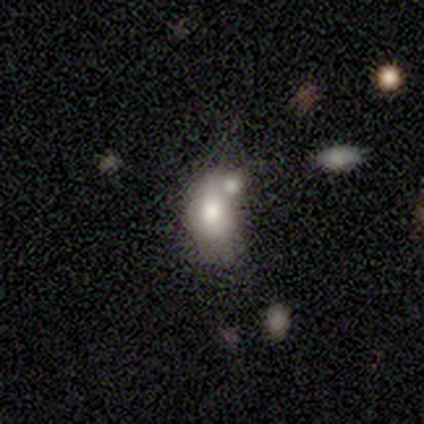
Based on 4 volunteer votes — Volunteers were most divided on "smooth or featured" (2-way tie): smooth: 50%, star or artifact: 50%, featured or disk: 0%; "merging" (2-way tie): minor disturbance: 50%, merger: 50%, none: 0%, major disturbance: 0%. More confident: how rounded — in between (100%).